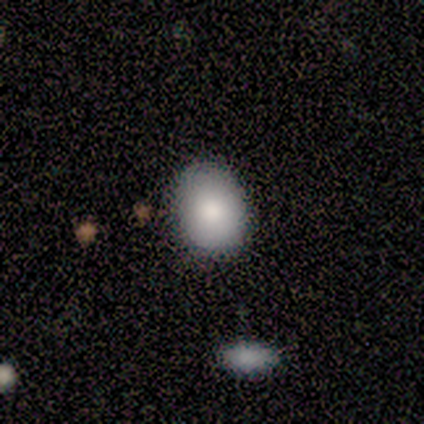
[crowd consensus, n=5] Volunteers were most divided on "smooth or featured": smooth: 80%, star or artifact: 20%, featured or disk: 0%. More confident: how rounded — in between (100%); merging — none (100%).